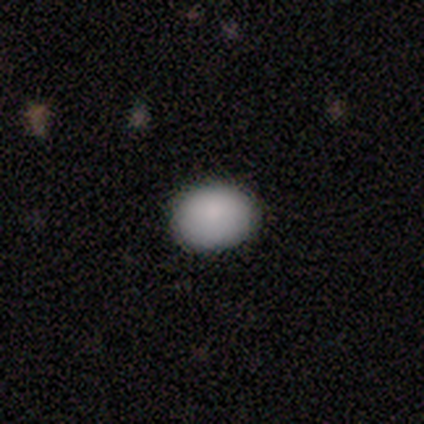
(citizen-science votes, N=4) A smooth galaxy with no disk features (75%) that is round (67%).

Vote fractions:
- Smooth or featured? smooth: 75% / featured or disk: 25% / star or artifact: 0%
- How rounded? round: 67% / in between: 33% / cigar-shaped: 0%
- Merging? none: 75% / minor disturbance: 25% / major disturbance: 0% / merger: 0%